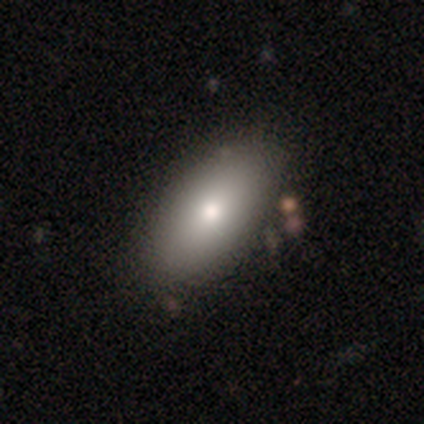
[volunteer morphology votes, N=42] type=smooth (62%); roundness=in between (92%); merging=none (70%).